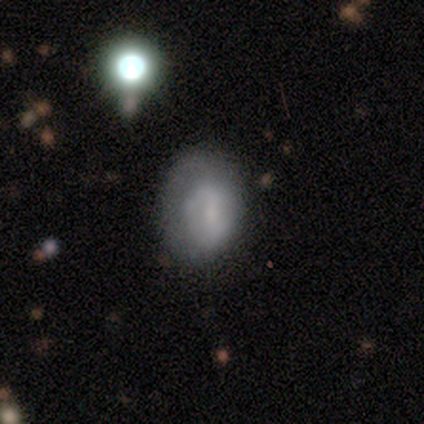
Volunteers were most divided on "bar" (3-way tie): strong: 33%, weak: 33%, no: 33%; "merging" (2-way tie): none: 40%, minor disturbance: 40%, major disturbance: 20%, merger: 0%. More confident: edge-on disk — no (100%); spiral arms — no (67%); bulge size — small (67%); smooth or featured — featured or disk (60%).